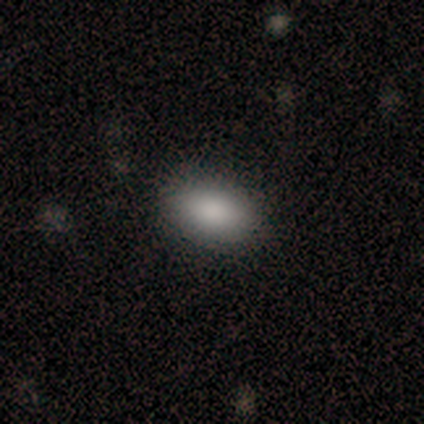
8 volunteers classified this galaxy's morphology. Smooth or featured? smooth (88%)
How rounded? in between (100%)
Merging? none (86%)